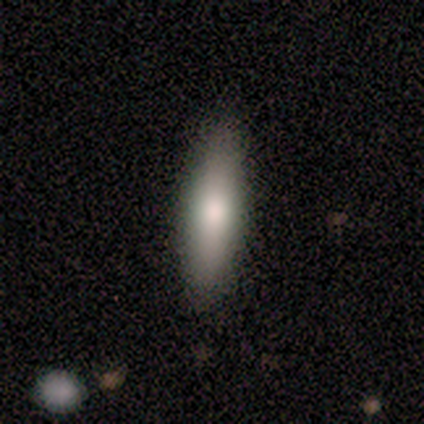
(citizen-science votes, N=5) Smooth or featured: smooth — 80% (featured or disk — 20%)
How rounded: cigar-shaped — 75% (in between — 25%)
Merging: none — 100%